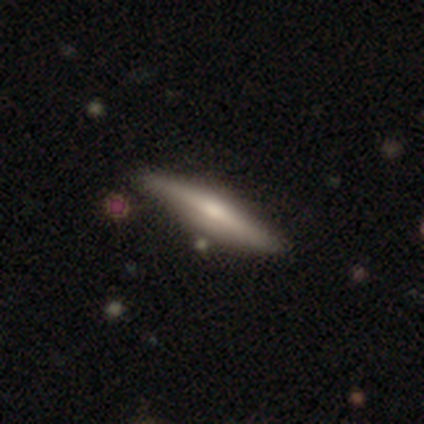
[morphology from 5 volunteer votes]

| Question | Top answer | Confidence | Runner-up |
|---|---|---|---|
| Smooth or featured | featured or disk | 60% | smooth (40%) |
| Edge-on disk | yes | 100% | — |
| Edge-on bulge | rounded | 100% | — |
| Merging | none | 100% | — |